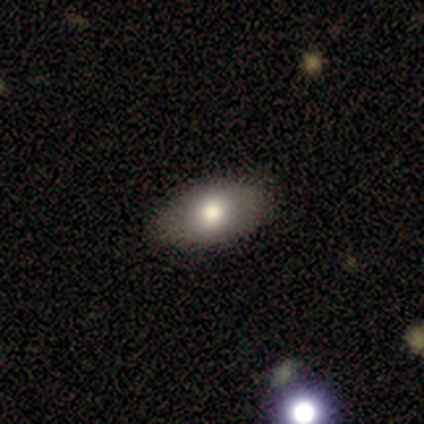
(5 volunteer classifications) A smooth galaxy with no disk features (100%) that is in between round and cigar-shaped (100%). Merging: none (80%).